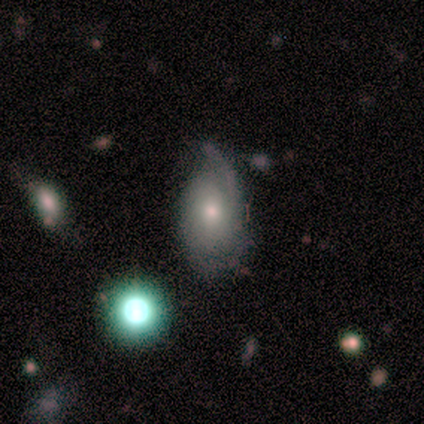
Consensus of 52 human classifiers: smooth_or_featured: featured or disk (p=0.63) [alt: smooth p=0.27]
disk_edge_on: no (p=1.00)
bar: no (p=0.82) [alt: weak p=0.18]
has_spiral_arms: yes (p=0.70) [alt: no p=0.30]
spiral_winding: tight (p=0.52) [alt: medium p=0.26]
spiral_arm_count: 2 (p=0.43) [alt: 1 p=0.26]
bulge_size: moderate (p=0.42) [tied with: small p=0.42]
merging: none (p=0.43) [alt: minor disturbance p=0.38]